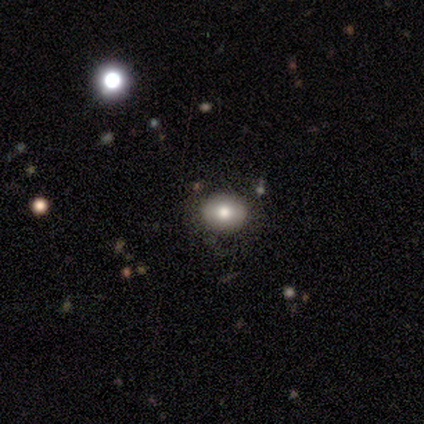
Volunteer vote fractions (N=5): Smooth or featured: smooth — 40% (tied with star or artifact — 40%)
How rounded: round — 100%
Merging: none — 100%